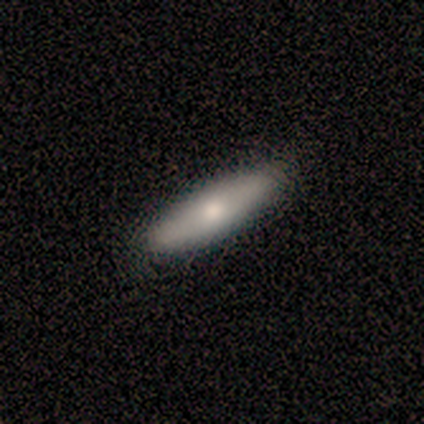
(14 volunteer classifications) smooth-or-featured: smooth: 57% | featured or disk: 43% | star or artifact: 0%
  how-rounded: cigar-shaped: 62% | in between: 38% | round: 0%
  merging: none: 86% | minor disturbance: 14% | major disturbance: 0% | merger: 0%